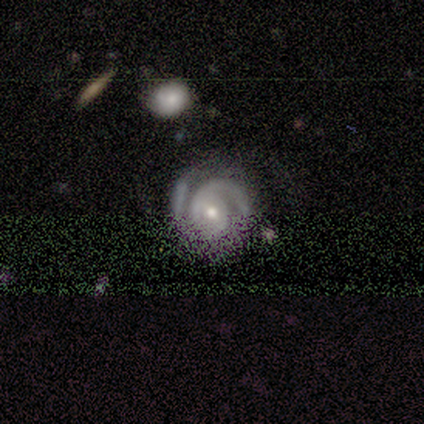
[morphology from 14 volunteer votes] Smooth or featured?
  - featured or disk: 93% *
  - star or artifact: 7%
  - smooth: 0%
Edge-on disk?
  - no: 92% *
  - yes: 8%
Bar?
  - weak: 42% * (tied)
  - no: 42% * (tied)
  - strong: 17%
Spiral arms?
  - yes: 100% *
  - no: 0%
Spiral winding?
  - tight: 58% *
  - medium: 42%
  - loose: 0%
Spiral arm count?
  - 2: 83% *
  - 3: 8%
  - can't tell: 8%
  - 1: 0%
  - 4: 0%
  - more than 4: 0%
Bulge size?
  - moderate: 75% *
  - small: 25%
  - dominant: 0%
  - large: 0%
  - none: 0%
Merging?
  - none: 77% *
  - minor disturbance: 8%
  - major disturbance: 8%
  - merger: 8%